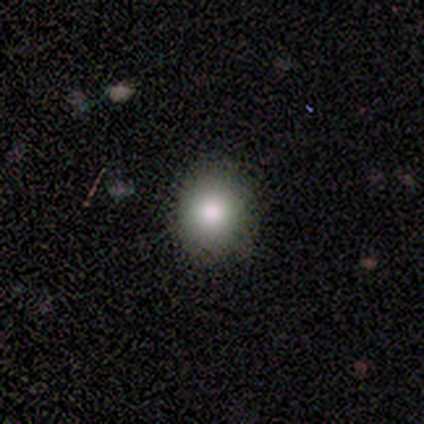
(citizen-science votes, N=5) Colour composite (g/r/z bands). It shows a smooth galaxy with no disk features (80%) that is round (100%). Merging: none (100%).